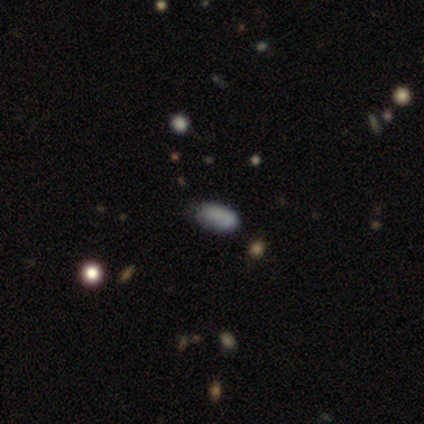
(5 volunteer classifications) A smooth galaxy with no disk features (60%) that is in between round and cigar-shaped (100%).

Vote fractions:
- Smooth or featured? smooth: 60% / featured or disk: 20% / star or artifact: 20%
- How rounded? in between: 100% / round: 0% / cigar-shaped: 0%
- Merging? none: 50% / minor disturbance: 25% / merger: 25% / major disturbance: 0%